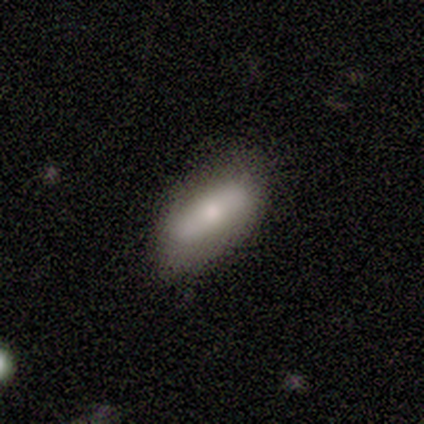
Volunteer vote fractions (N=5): Volunteers were most divided on "smooth or featured": smooth: 60%, featured or disk: 20%, star or artifact: 20%. More confident: how rounded — in between (100%); merging — none (75%).